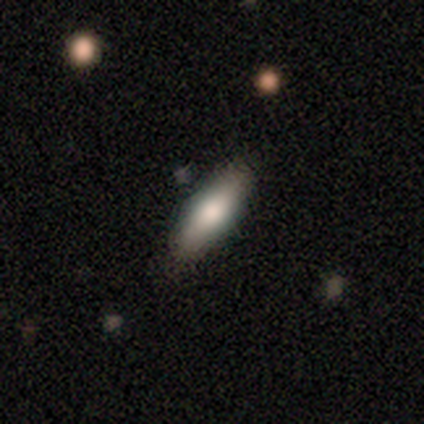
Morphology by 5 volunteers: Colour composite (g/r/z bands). It shows a smooth galaxy with no disk features (80%) that is cigar-shaped (75%). Merging: none (100%).